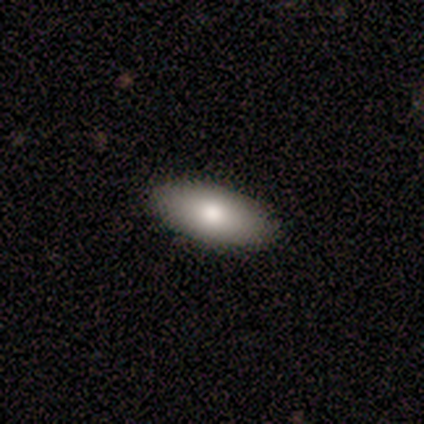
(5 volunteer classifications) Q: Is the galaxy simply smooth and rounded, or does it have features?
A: smooth — 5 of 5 (100%).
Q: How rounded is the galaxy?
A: in between — 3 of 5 (60%).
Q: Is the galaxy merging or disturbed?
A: none — 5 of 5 (100%).